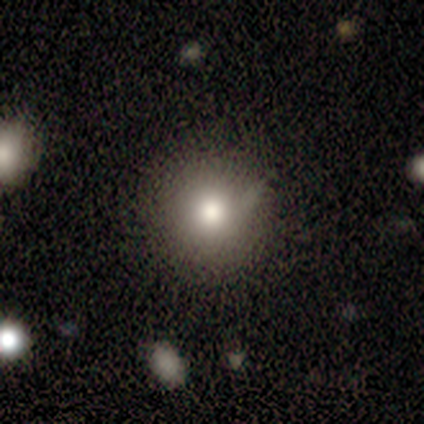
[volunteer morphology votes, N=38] smooth 71%, star or artifact 16%, featured or disk 13%. Down the decision tree: how rounded — round (93%); merging — none (91%).